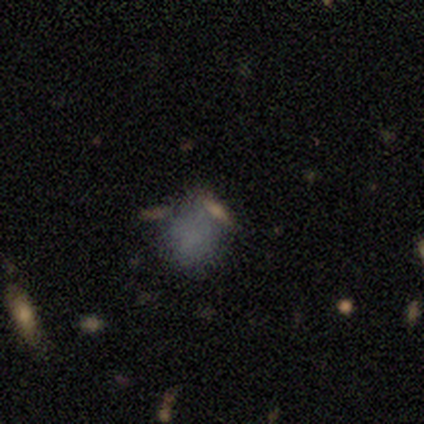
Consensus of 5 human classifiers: Smooth or featured? 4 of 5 (80%) said smooth. How rounded? 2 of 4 (50%, tied with in between) said round. Merging? 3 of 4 (75%) said none.